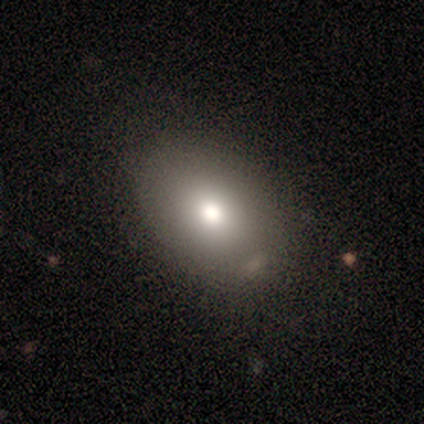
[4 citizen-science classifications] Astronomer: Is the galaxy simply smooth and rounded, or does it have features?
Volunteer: smooth — 100%.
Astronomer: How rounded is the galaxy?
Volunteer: in between — 75%.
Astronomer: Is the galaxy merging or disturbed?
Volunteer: none — 75%.